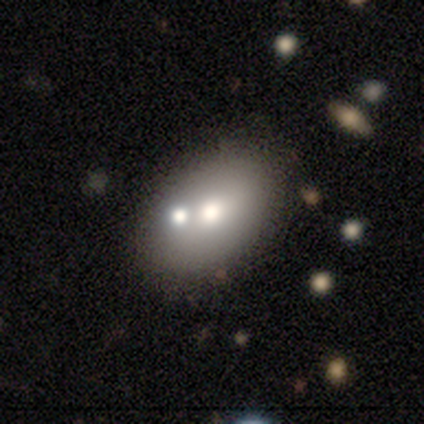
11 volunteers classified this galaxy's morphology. Q: Smooth or featured?
A: smooth (55%); runner-up: star or artifact (27%)
Q: How rounded?
A: in between (83%); runner-up: round (17%)
Q: Merging?
A: none (88%); runner-up: merger (12%)